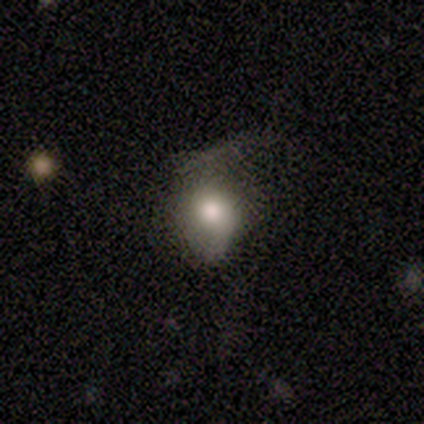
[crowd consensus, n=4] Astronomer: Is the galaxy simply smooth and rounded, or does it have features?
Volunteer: smooth — 75%.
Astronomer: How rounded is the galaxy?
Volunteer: in between — 67%.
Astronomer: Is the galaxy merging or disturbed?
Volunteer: major disturbance — 50%.